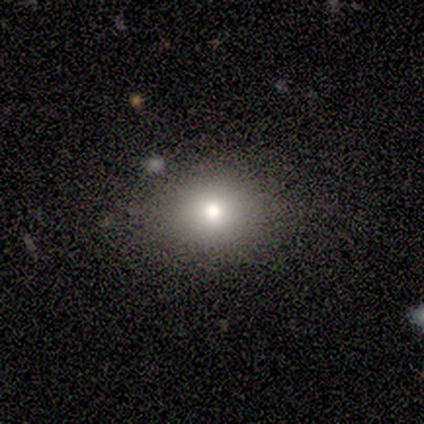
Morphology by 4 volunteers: Volunteers were most divided on "smooth or featured": star or artifact: 50%, smooth: 25%, featured or disk: 25%.